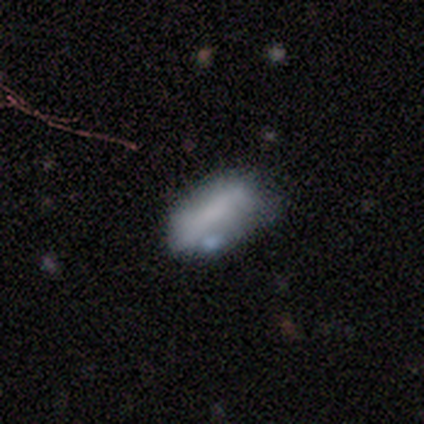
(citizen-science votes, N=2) smooth-or-featured: smooth: 100% | featured or disk: 0% | star or artifact: 0%
  how-rounded: in between: 100% | round: 0% | cigar-shaped: 0%
  merging: none: 50% (tied) | minor disturbance: 50% (tied) | major disturbance: 0% | merger: 0%